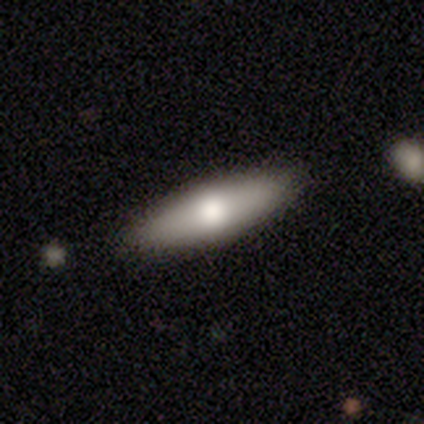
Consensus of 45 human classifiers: A smooth galaxy with no disk features (67%) that is cigar-shaped (57%). Merging: none (98%).